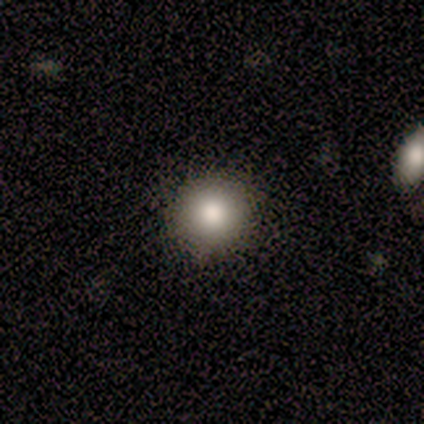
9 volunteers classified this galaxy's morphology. Overall: smooth (100%). How rounded: round (100%). Merging: none (100%).